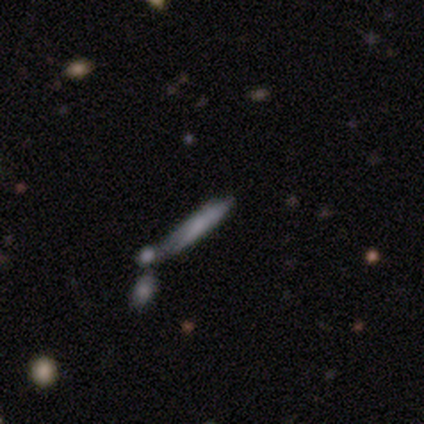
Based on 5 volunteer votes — Q: Smooth or featured?
A: smooth (100%)
Q: How rounded?
A: cigar-shaped (100%)
Q: Merging?
A: none (40%); runner-up: minor disturbance (20%)